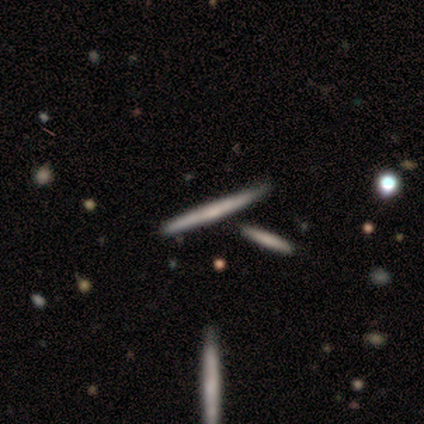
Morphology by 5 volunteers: smooth_or_featured: featured or disk (p=0.80) [alt: smooth p=0.20]
disk_edge_on: yes (p=1.00)
edge_on_bulge: none (p=0.75) [alt: rounded p=0.25]
merging: none (p=0.80) [alt: minor disturbance p=0.20]